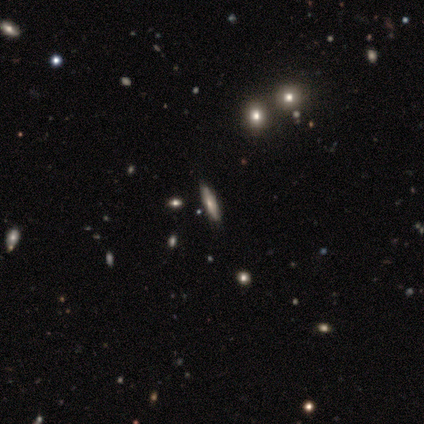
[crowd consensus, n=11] Smooth or featured?
  - smooth: 45% *
  - featured or disk: 27%
  - star or artifact: 27%
How rounded?
  - in between: 60% *
  - cigar-shaped: 40%
  - round: 0%
Merging?
  - none: 88% *
  - major disturbance: 12%
  - minor disturbance: 0%
  - merger: 0%